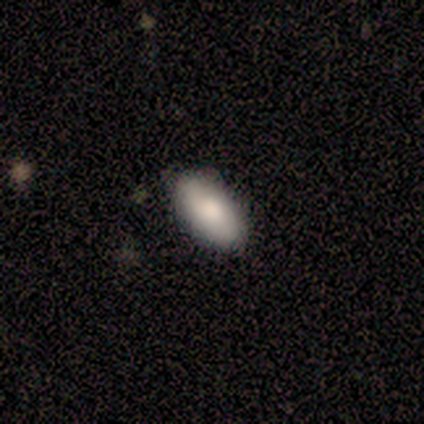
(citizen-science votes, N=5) Q: Smooth or featured?
A: smooth (80%); runner-up: featured or disk (20%)
Q: How rounded?
A: in between (50%); runner-up: round (25%)
Q: Merging?
A: none (100%)